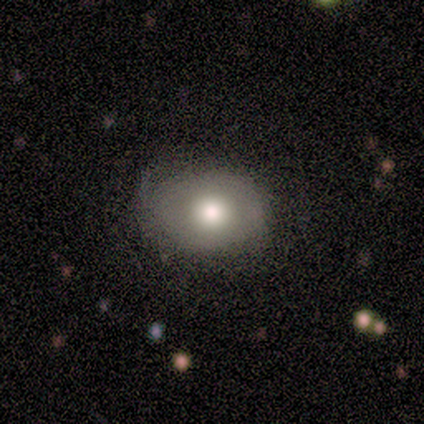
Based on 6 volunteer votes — Smooth or featured? 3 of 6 (50%) said smooth. How rounded? 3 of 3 (100%) said in between. Merging? 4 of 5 (80%) said none.